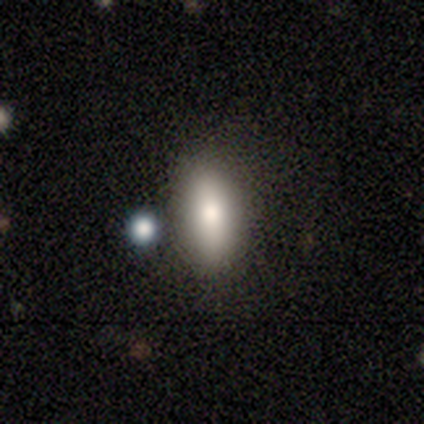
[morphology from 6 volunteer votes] smooth_or_featured: smooth (p=0.67) [alt: featured or disk p=0.33]
how_rounded: in between (p=1.00)
merging: none (p=0.83) [alt: merger p=0.17]